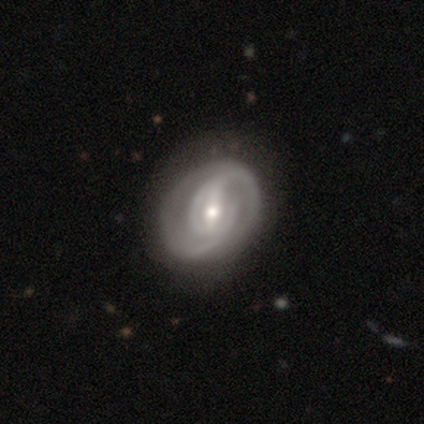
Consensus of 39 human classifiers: Q: Smooth or featured?
A: featured or disk (90%); runner-up: smooth (8%)
Q: Edge-on disk?
A: no (100%)
Q: Bar?
A: strong (54%); runner-up: weak (34%)
Q: Spiral arms?
A: yes (94%); runner-up: no (6%)
Q: Spiral winding?
A: medium (48%); runner-up: tight (39%)
Q: Spiral arm count?
A: 2 (79%); runner-up: can't tell (9%)
Q: Bulge size?
A: moderate (69%); runner-up: small (29%)
Q: Merging?
A: none (50%); runner-up: minor disturbance (16%)